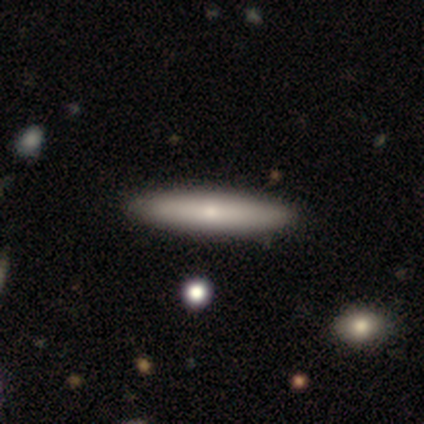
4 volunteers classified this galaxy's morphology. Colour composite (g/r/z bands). It shows a smooth galaxy with no disk features (50%, tied with featured or disk) that is in between round and cigar-shaped (50%, tied with cigar-shaped). Merging: none (100%).